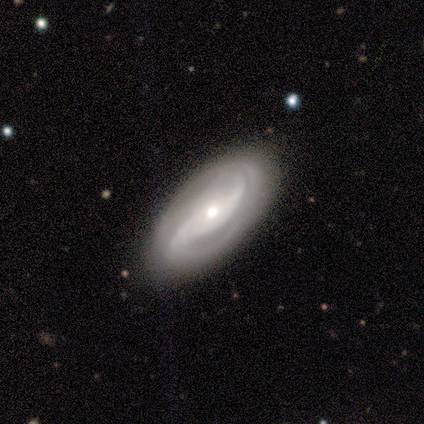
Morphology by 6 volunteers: smooth_or_featured: featured or disk (p=0.83) [alt: smooth p=0.17]
disk_edge_on: no (p=1.00)
bar: weak (p=0.80) [alt: no p=0.20]
has_spiral_arms: yes (p=0.80) [alt: no p=0.20]
spiral_winding: medium (p=0.75) [alt: tight p=0.25]
spiral_arm_count: 2 (p=0.75) [alt: can't tell p=0.25]
bulge_size: small (p=0.60) [alt: moderate p=0.40]
merging: none (p=0.67) [alt: minor disturbance p=0.33]